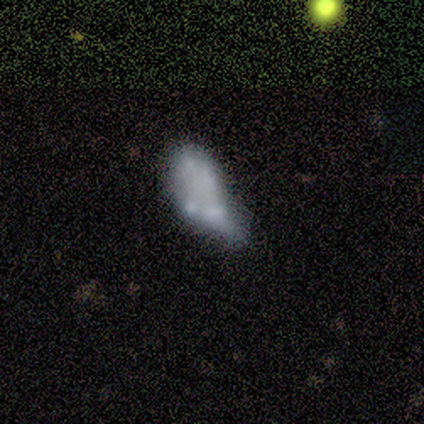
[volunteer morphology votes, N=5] smooth-or-featured: featured or disk: 80% | smooth: 20% | star or artifact: 0%
  disk-edge-on: no: 100% | yes: 0%
    bar: no: 75% | weak: 25% | strong: 0%
    has-spiral-arms: no: 100% | yes: 0%
    bulge-size: none: 100% | dominant: 0% | large: 0% | moderate: 0% | small: 0%
  merging: minor disturbance: 60% | none: 20% | merger: 20% | major disturbance: 0%